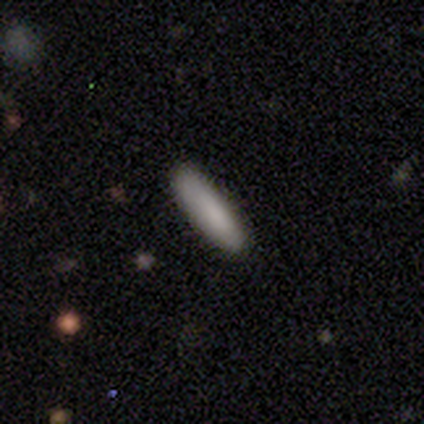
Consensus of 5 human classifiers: smooth 100%, featured or disk 0%, star or artifact 0%. Down the decision tree: how rounded — cigar-shaped (80%); merging — none (100%).